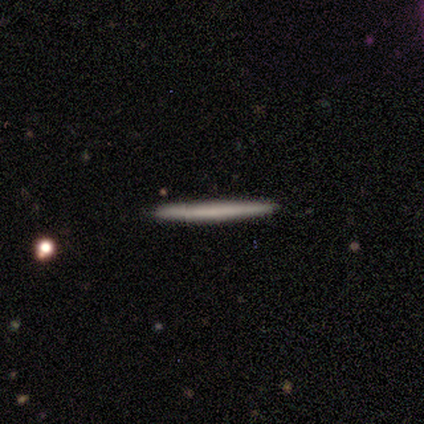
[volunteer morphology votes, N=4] Volunteers were most divided on "merging": none: 75%, merger: 25%, minor disturbance: 0%, major disturbance: 0%. More confident: smooth or featured — smooth (100%); how rounded — cigar-shaped (100%).